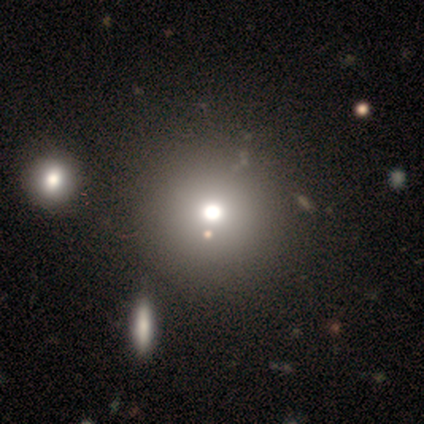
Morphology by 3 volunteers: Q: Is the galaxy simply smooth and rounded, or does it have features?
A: smooth — 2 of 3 (67%).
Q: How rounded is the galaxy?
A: round — 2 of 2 (100%).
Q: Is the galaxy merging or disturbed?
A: none — 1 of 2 (50%, tied with minor disturbance).